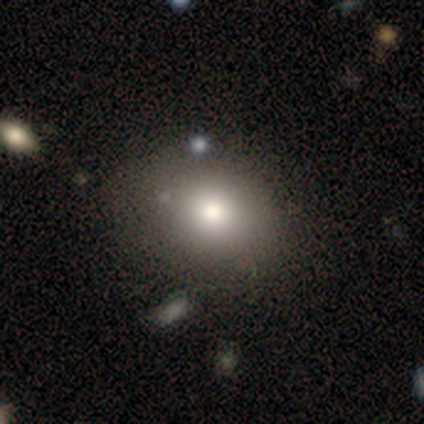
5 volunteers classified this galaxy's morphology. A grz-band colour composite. It shows a smooth galaxy with no disk features (80%) that is round (75%). Merging: none (60%).